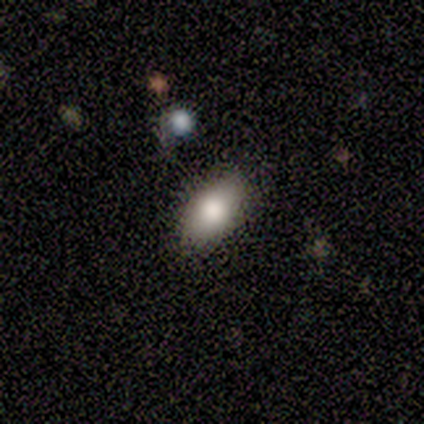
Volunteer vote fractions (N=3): This appears to be a smooth galaxy with no disk features (100%) that is in between round and cigar-shaped (100%). Merging: none (100%).